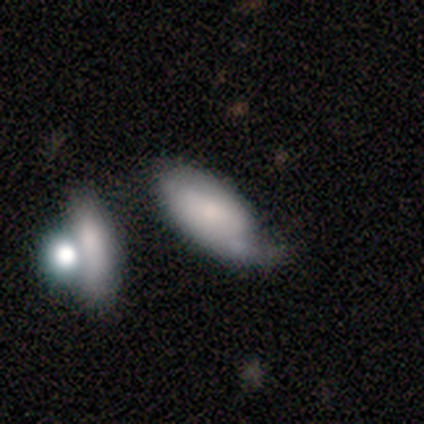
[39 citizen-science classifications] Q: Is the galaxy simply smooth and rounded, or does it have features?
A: smooth — 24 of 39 (62%).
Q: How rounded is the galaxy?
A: in between — 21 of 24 (88%).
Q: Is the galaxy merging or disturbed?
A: minor disturbance — 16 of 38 (42%).